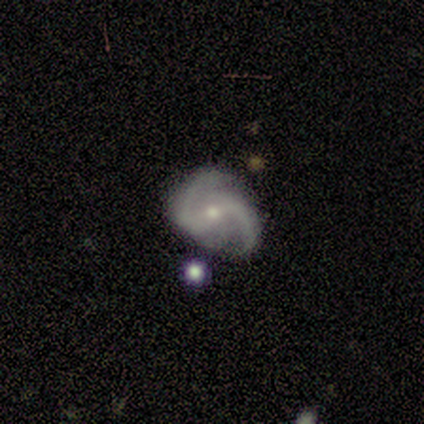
smooth-or-featured: featured or disk: 85% | star or artifact: 13% | smooth: 3%
  disk-edge-on: no: 94% | yes: 6%
    bar: weak: 42% | strong: 35% | no: 23%
    has-spiral-arms: yes: 100% | no: 0%
      spiral-winding: medium: 58% | loose: 29% | tight: 13%
      spiral-arm-count: 2: 100% | 1: 0% | 3: 0% | 4: 0% | more than 4: 0% | can't tell: 0%
    bulge-size: small: 74% | moderate: 26% | dominant: 0% | large: 0% | none: 0%
  merging: none: 62% | minor disturbance: 26% | major disturbance: 9% | merger: 3%